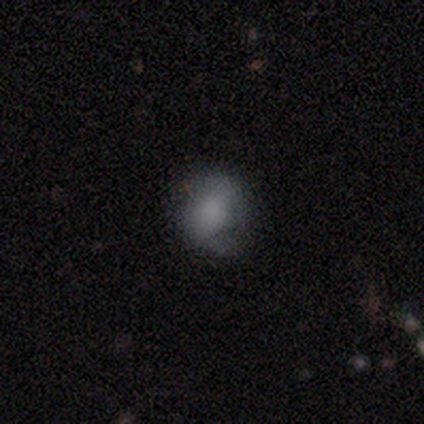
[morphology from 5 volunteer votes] Overall: smooth (80%). How rounded: in between (75%). Merging: minor disturbance (40%, tied with major disturbance).